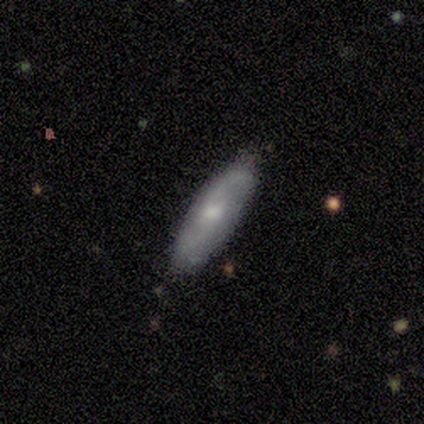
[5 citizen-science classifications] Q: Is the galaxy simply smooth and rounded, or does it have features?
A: smooth — 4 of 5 (80%).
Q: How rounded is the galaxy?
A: cigar-shaped — 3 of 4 (75%).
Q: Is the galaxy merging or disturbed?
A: none — 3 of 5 (60%).